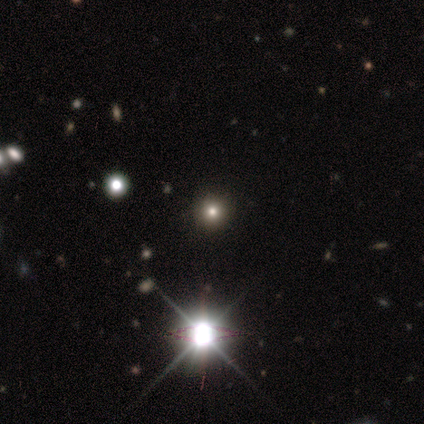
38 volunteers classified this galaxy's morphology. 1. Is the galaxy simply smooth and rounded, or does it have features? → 53% star or artifact, 37% smooth, 11% featured or disk.